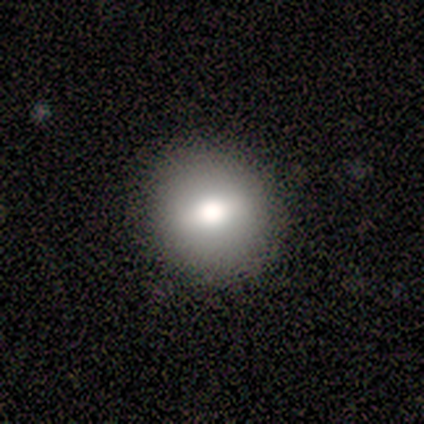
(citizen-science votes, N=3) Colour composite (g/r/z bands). It shows a star or artifact, not a galaxy (67%).